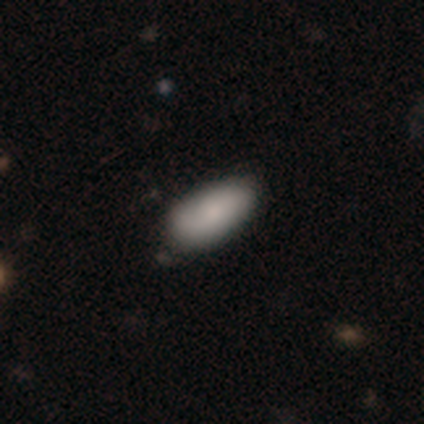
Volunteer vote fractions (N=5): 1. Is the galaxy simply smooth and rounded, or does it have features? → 100% smooth, 0% featured or disk, 0% star or artifact.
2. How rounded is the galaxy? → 80% in between, 20% cigar-shaped, 0% round.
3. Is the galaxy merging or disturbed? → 60% none, 40% minor disturbance, 0% major disturbance, 0% merger.